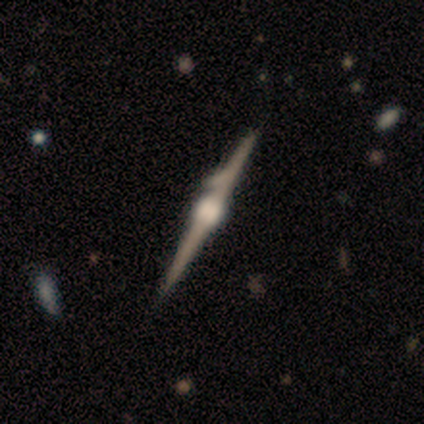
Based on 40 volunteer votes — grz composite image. It shows a featured or disk galaxy (92%) viewed edge-on (100%) with a rounded central bulge (89%). Merging: none (44%).